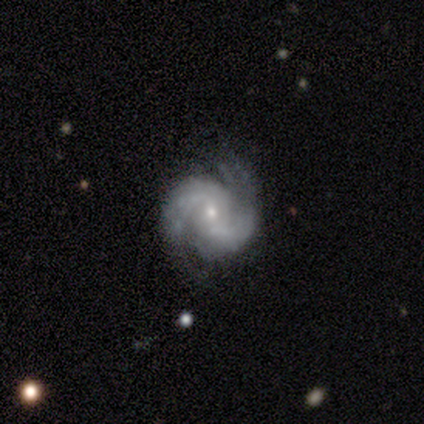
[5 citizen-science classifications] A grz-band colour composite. It shows a featured or disk galaxy (80%) with no bar (75%), 2 (100%) loose (50%) spiral arms (100%) and a small central bulge (100%). Merging: none (100%).